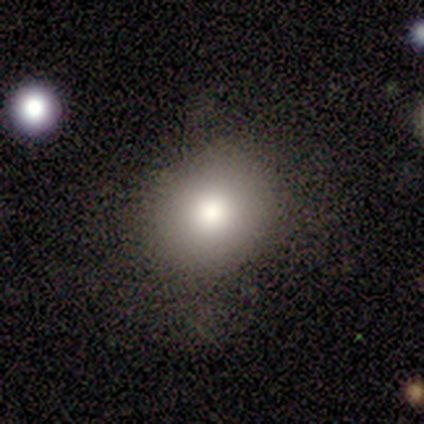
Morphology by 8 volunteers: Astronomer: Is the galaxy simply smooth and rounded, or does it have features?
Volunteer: smooth — 88%.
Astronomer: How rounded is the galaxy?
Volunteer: round — 57% (runner-up: in between, 43%).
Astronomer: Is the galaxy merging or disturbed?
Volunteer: none — 57% (runner-up: minor disturbance, 43%).